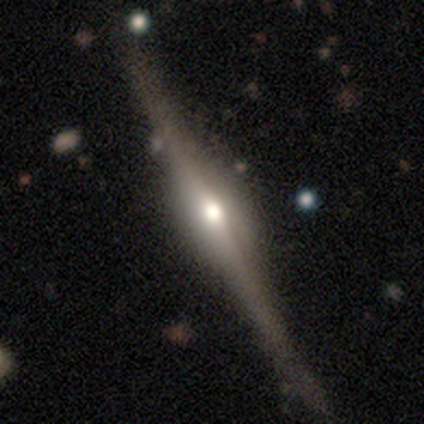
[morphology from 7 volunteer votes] Smooth or featured: featured or disk — 86% (smooth — 14%)
Edge-on disk: yes — 100%
Edge-on bulge: rounded — 83% (boxy — 17%)
Merging: none — 100%